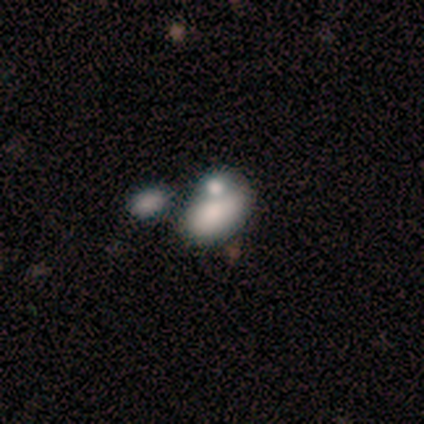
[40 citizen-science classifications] Volunteers were most divided on "merging": merger: 45%, none: 32%, minor disturbance: 13%, major disturbance: 11%. More confident: how rounded — in between (92%); smooth or featured — smooth (65%).